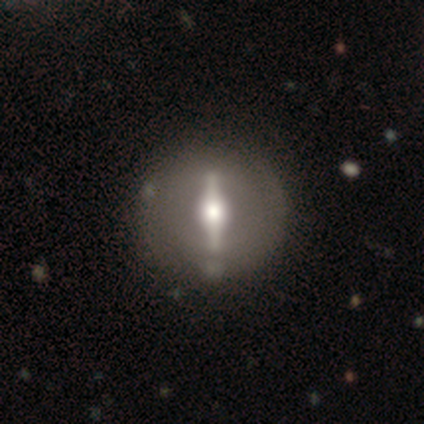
Smooth or featured?
  - featured or disk: 88% *
  - star or artifact: 8%
  - smooth: 4%
Edge-on disk?
  - no: 52% *
  - yes: 48%
Bar?
  - strong: 100% *
  - weak: 0%
  - no: 0%
Spiral arms?
  - no: 64% *
  - yes: 36%
Bulge size?
  - moderate: 73% *
  - large: 18%
  - dominant: 9%
  - small: 0%
  - none: 0%
Merging?
  - none: 86% *
  - major disturbance: 9%
  - minor disturbance: 5%
  - merger: 0%